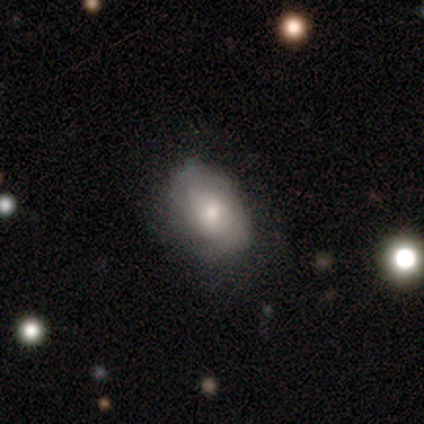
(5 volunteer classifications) Volunteers were most divided on "merging": none: 60%, major disturbance: 20%, merger: 20%, minor disturbance: 0%. More confident: smooth or featured — smooth (80%); how rounded — in between (75%).